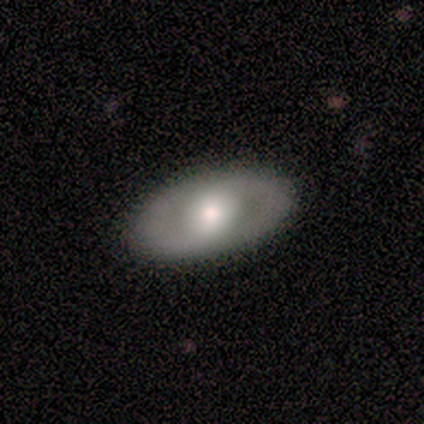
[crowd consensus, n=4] Smooth or featured?
  - smooth: 50% * (tied)
  - featured or disk: 50% * (tied)
  - star or artifact: 0%
How rounded?
  - in between: 100% *
  - round: 0%
  - cigar-shaped: 0%
Merging?
  - none: 75% *
  - minor disturbance: 25%
  - major disturbance: 0%
  - merger: 0%